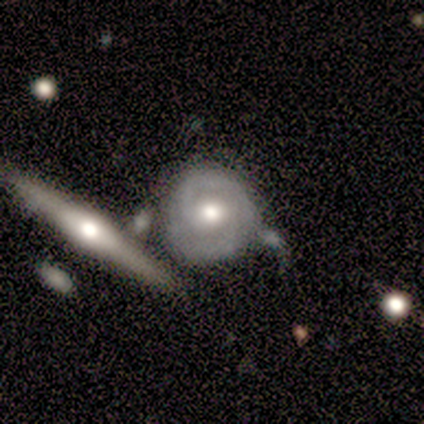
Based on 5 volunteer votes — Smooth or featured?
  - featured or disk: 80% *
  - star or artifact: 20%
  - smooth: 0%
Edge-on disk?
  - no: 75% *
  - yes: 25%
Bar?
  - no: 67% *
  - weak: 33%
  - strong: 0%
Spiral arms?
  - yes: 67% *
  - no: 33%
Spiral winding?
  - tight: 100% *
  - medium: 0%
  - loose: 0%
Spiral arm count?
  - 2: 50% * (tied)
  - can't tell: 50% * (tied)
  - 1: 0%
  - 3: 0%
  - 4: 0%
  - more than 4: 0%
Bulge size?
  - moderate: 67% *
  - small: 33%
  - dominant: 0%
  - large: 0%
  - none: 0%
Merging?
  - none: 75% *
  - minor disturbance: 25%
  - major disturbance: 0%
  - merger: 0%